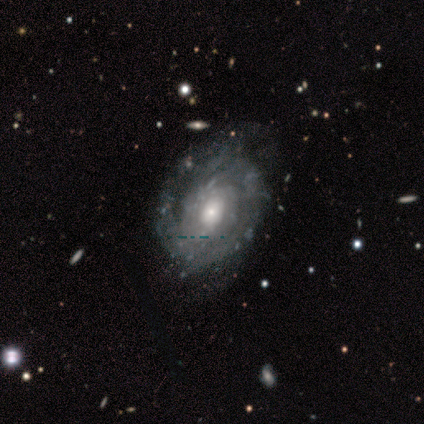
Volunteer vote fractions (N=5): smooth_or_featured: featured or disk (p=0.60) [alt: smooth p=0.40]
disk_edge_on: no (p=1.00)
bar: no (p=1.00)
has_spiral_arms: yes (p=0.67) [alt: no p=0.33]
spiral_winding: tight (p=0.50) [tied with: medium p=0.50]
spiral_arm_count: can't tell (p=1.00)
bulge_size: moderate (p=0.67) [alt: small p=0.33]
merging: none (p=0.60) [alt: minor disturbance p=0.40]